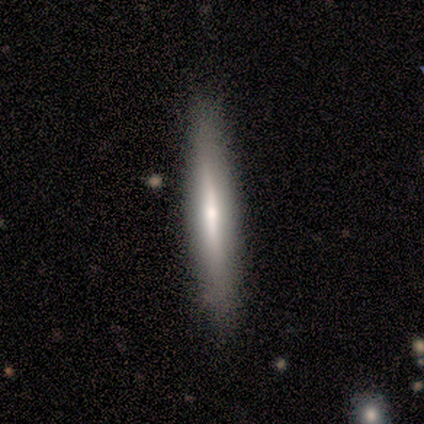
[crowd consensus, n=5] This is marginally a smooth galaxy (40%, tied with featured or disk). How rounded: clearly cigar-shaped (100%). Merging: clearly none (100%).